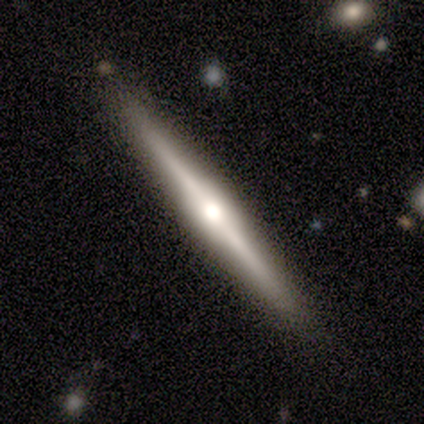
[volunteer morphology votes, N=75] This appears to be a featured or disk galaxy (77%) viewed edge-on (98%) with a rounded central bulge (81%). Merging: none (73%).